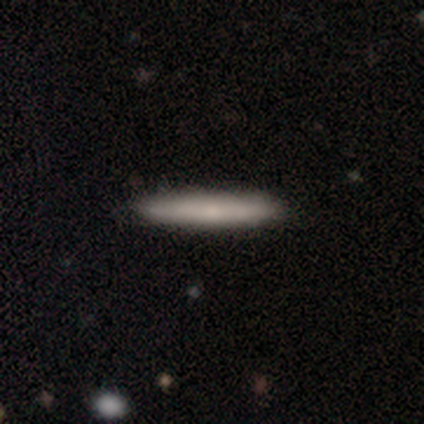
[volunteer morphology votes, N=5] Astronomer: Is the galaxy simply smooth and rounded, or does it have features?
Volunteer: smooth — 80%.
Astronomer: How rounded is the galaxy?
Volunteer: cigar-shaped — 100%.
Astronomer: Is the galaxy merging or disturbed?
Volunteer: none — 100%.